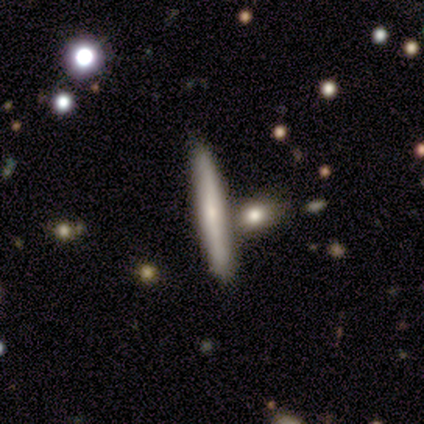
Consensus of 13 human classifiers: Q: Smooth or featured?
A: featured or disk (62%); runner-up: smooth (38%)
Q: Edge-on disk?
A: yes (88%); runner-up: no (12%)
Q: Edge-on bulge?
A: none (57%); runner-up: rounded (43%)
Q: Merging?
A: none (85%); runner-up: merger (15%)